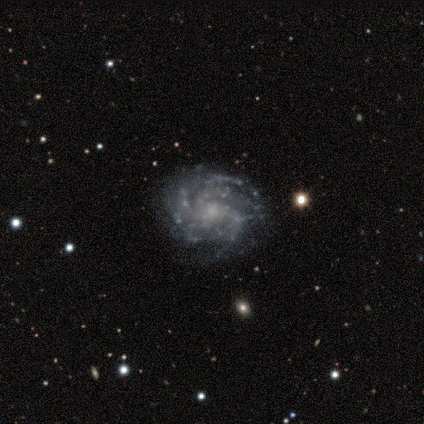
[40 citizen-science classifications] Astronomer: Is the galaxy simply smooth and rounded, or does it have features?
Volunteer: featured or disk — 98%.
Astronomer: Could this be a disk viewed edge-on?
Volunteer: no — 100%.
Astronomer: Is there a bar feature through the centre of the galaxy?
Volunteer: no — 74%.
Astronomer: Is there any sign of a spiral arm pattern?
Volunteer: yes — 97%.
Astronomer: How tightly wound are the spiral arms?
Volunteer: tight — 76%.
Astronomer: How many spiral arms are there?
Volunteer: more than 4 — 32% (runner-up: can't tell, 29%).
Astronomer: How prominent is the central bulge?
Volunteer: small — 69%.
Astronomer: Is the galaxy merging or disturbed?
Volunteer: none — 87%.